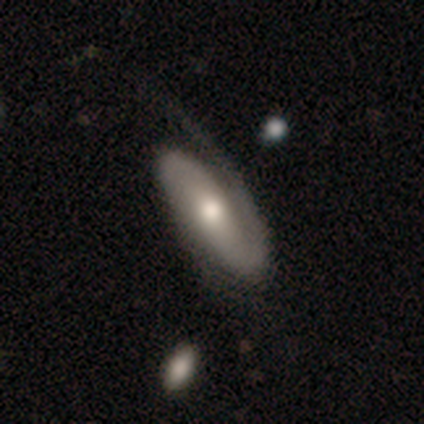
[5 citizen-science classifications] Q: Smooth or featured?
A: featured or disk (100%)
Q: Edge-on disk?
A: no (60%); runner-up: yes (40%)
Q: Bar?
A: no (67%); runner-up: strong (33%)
Q: Spiral arms?
A: yes (100%)
Q: Spiral winding?
A: tight (33%); tied with: medium (33%); loose (33%)
Q: Spiral arm count?
A: 1 (67%); runner-up: 2 (33%)
Q: Bulge size?
A: moderate (100%)
Q: Merging?
A: none (40%); tied with: minor disturbance (40%)